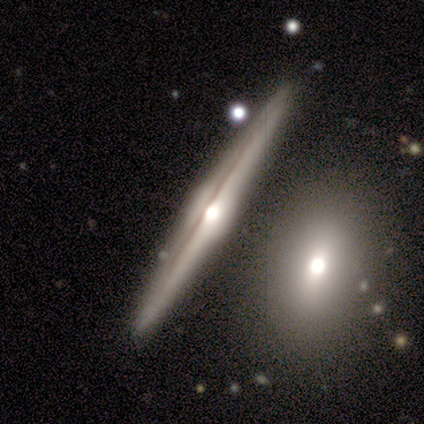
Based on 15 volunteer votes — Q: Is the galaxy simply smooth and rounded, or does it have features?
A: featured or disk — 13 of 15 (87%).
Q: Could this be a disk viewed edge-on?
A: yes — 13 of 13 (100%).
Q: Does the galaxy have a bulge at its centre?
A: rounded — 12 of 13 (92%).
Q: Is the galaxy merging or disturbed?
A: none — 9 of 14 (64%).